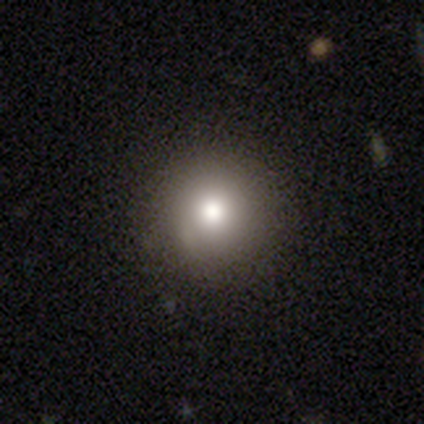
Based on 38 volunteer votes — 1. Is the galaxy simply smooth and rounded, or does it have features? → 89% smooth, 5% featured or disk, 5% star or artifact.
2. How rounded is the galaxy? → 97% round, 3% in between, 0% cigar-shaped.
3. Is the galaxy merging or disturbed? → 94% none, 3% minor disturbance, 3% merger, 0% major disturbance.